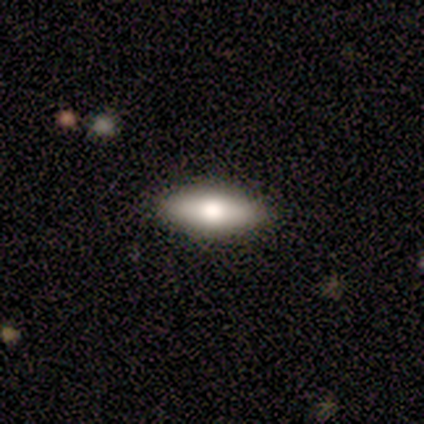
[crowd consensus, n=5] smooth 80%, featured or disk 20%, star or artifact 0%. Down the decision tree: how rounded — in between (75%); merging — none (60%).